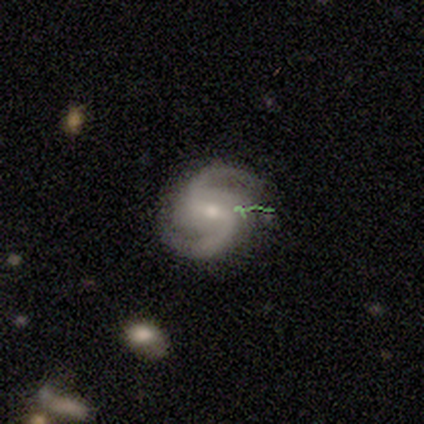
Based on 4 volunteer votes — Q: Smooth or featured?
A: featured or disk (100%)
Q: Edge-on disk?
A: no (100%)
Q: Bar?
A: weak (75%); runner-up: no (25%)
Q: Spiral arms?
A: yes (100%)
Q: Spiral winding?
A: loose (75%); runner-up: medium (25%)
Q: Spiral arm count?
A: 2 (75%); runner-up: 3 (25%)
Q: Bulge size?
A: small (100%)
Q: Merging?
A: none (50%); tied with: minor disturbance (50%)